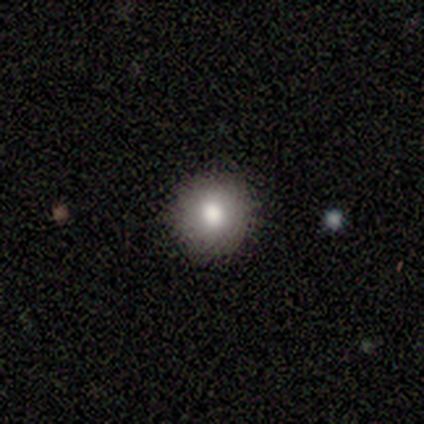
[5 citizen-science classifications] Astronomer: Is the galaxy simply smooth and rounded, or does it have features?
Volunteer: smooth — 60%.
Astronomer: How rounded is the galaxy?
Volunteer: round — 100%.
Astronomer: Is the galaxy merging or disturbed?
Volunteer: none — 100%.